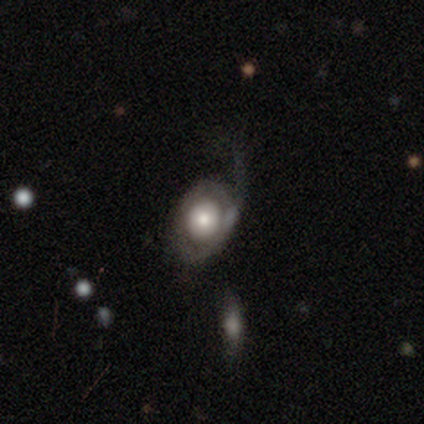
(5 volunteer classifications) Overall: featured or disk (100%). Edge-on disk: no (80%). Bar: no (100%). Spiral arms: yes (50%, tied with no). Spiral arm count: 1 (100%). Spiral winding: medium (50%, tied with loose). Bulge size: moderate (75%). Merging: none (60%; minor disturbance 20%).